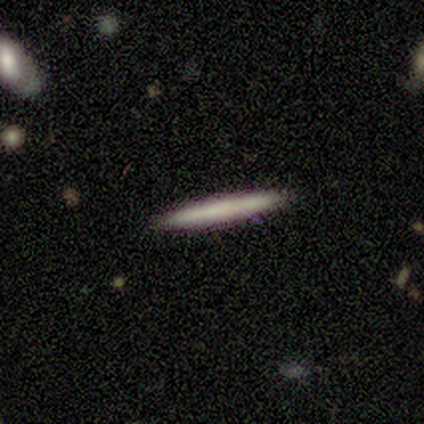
Smooth or featured: featured or disk — 75% (smooth — 25%)
Edge-on disk: yes — 100%
Edge-on bulge: none — 100%
Merging: none — 75% (minor disturbance — 25%)